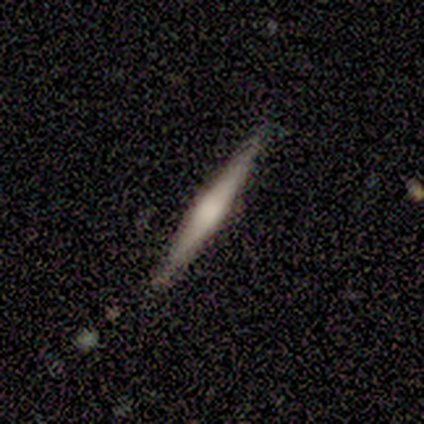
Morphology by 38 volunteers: A featured or disk galaxy (66%) viewed edge-on (100%) with a rounded central bulge (64%). Merging: none (79%).